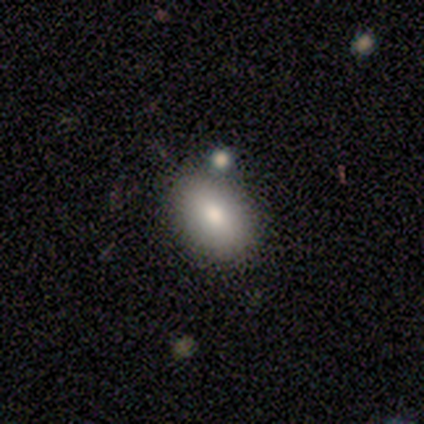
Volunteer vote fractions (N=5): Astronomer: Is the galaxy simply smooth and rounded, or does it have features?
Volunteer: smooth — 100%.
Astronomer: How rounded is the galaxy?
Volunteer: round — 60% (runner-up: in between, 40%).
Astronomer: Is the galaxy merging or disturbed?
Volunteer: none — 100%.